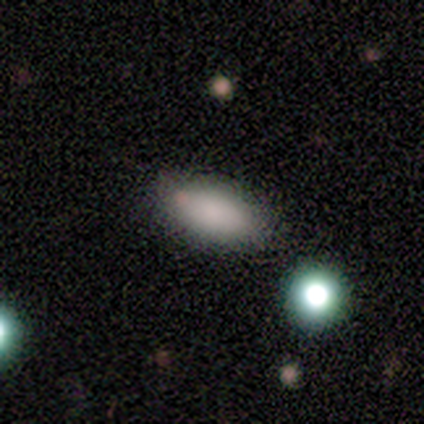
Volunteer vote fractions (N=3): A smooth galaxy with no disk features (67%) that is in between round and cigar-shaped (100%). Merging: none (100%).